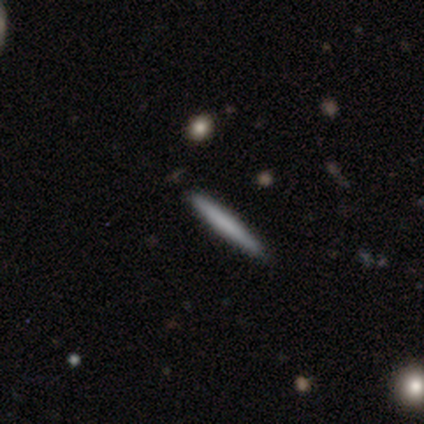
Q: Smooth or featured?
A: smooth (100%)
Q: How rounded?
A: cigar-shaped (100%)
Q: Merging?
A: none (75%); runner-up: merger (25%)